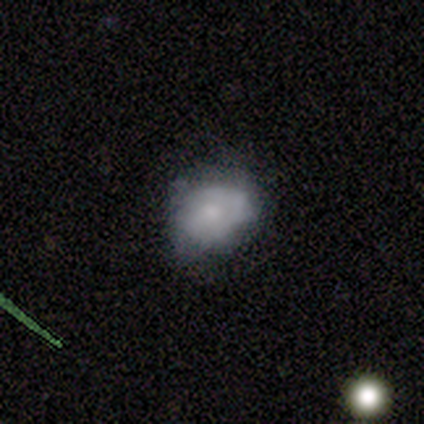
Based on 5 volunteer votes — A smooth galaxy with no disk features (60%) that is in between round and cigar-shaped (100%).

Vote fractions:
- Smooth or featured? smooth: 60% / featured or disk: 40% / star or artifact: 0%
- How rounded? in between: 100% / round: 0% / cigar-shaped: 0%
- Merging? none: 80% / minor disturbance: 20% / major disturbance: 0% / merger: 0%